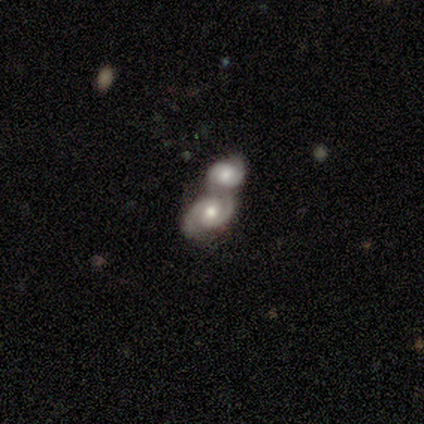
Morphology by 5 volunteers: This appears to be a featured or disk galaxy (100%) with a weak bar (50%, tied with no), 2 (100%) tight (50%, tied with medium) spiral arms (100%) and a moderate central bulge (100%). Merging: merger (100%).